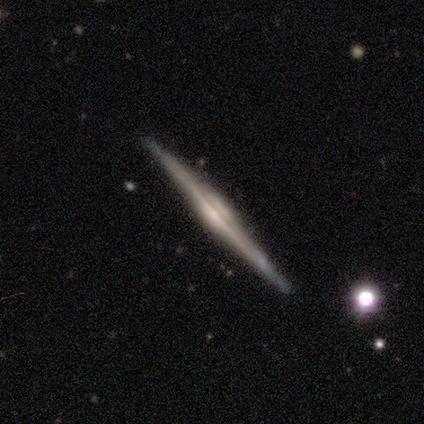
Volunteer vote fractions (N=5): This is clearly a featured or disk galaxy (100%). It is clearly viewed edge-on (100%). Edge-on bulge: clearly rounded (100%). Merging: clearly none (100%).